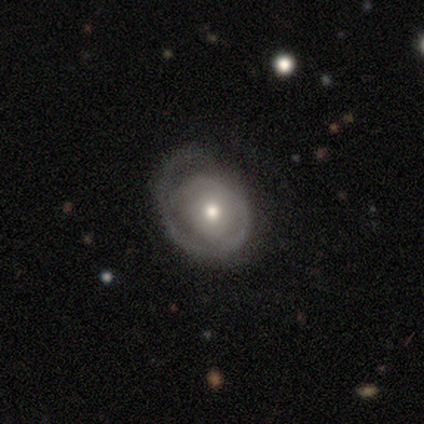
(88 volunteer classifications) Volunteers were most divided on "bulge size": moderate: 51%, small: 40%, large: 5%, dominant: 3%, none: 1%. More confident: edge-on disk — no (99%); bar — no (88%); smooth or featured — featured or disk (84%); spiral arms — yes (68%); spiral winding — tight (68%); merging — none (59%); spiral arm count — 1 (52%).